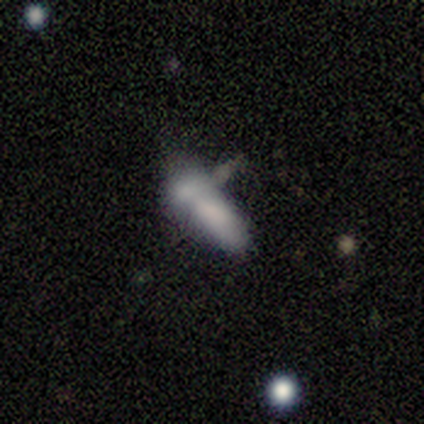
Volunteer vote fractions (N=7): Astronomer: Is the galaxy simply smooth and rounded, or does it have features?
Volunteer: featured or disk — 57% (runner-up: smooth, 43%).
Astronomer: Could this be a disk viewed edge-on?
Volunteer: no — 100%.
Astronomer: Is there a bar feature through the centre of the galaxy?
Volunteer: no — 100%.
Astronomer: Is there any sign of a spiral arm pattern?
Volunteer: no — 100%.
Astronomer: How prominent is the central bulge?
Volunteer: none — 75%.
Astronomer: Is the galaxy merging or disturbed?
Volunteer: merger — 57%.